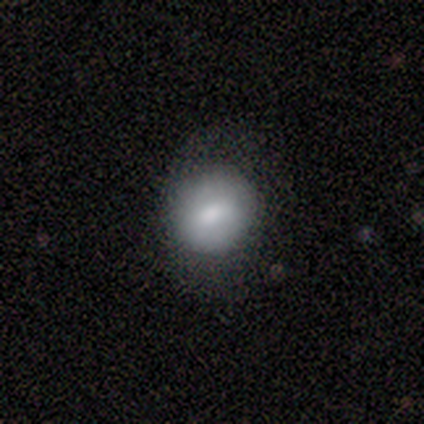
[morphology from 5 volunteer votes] Smooth or featured? 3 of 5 (60%) said smooth. How rounded? 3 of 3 (100%) said round. Merging? 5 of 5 (100%) said none.